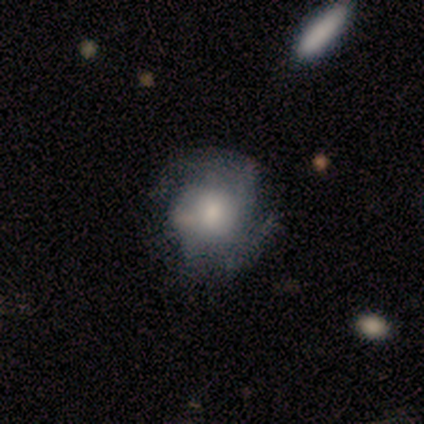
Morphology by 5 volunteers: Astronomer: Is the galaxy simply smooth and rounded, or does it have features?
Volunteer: featured or disk — 60% (runner-up: smooth, 40%).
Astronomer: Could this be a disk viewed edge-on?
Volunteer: no — 67%.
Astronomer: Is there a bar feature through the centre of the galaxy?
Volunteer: no — 100%.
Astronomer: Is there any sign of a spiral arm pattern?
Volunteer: yes — 100%.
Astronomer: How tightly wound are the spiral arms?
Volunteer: tight — 50%, tied with medium at 50%.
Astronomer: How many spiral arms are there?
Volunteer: can't tell — 100%.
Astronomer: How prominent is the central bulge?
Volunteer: large — 50%, tied with small at 50%.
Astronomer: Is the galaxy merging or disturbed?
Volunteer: none — 40% (runner-up: minor disturbance, 20%).